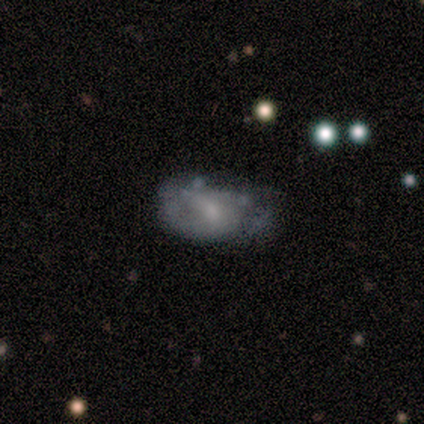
Smooth or featured? featured or disk (60%)
Edge-on disk? no (100%)
Bar? weak (67%)
Spiral arms? yes (67%)
Spiral winding? tight (50%, tied with medium)
Spiral arm count? 2 (100%)
Bulge size? small (100%)
Merging? none (60%)